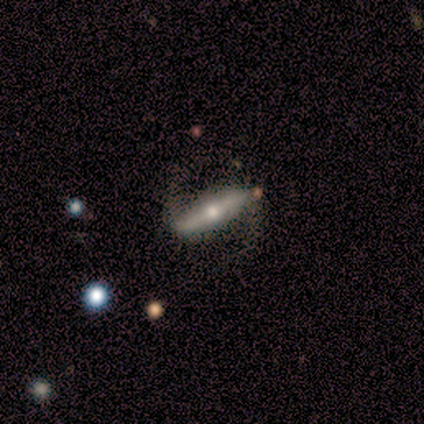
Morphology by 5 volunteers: type=featured or disk (100%); edge-on=no (60%); bar=strong (100%); spiral arms=yes (100%); winding=medium (67%); arm count=2 (100%); bulge=moderate (67%); merging=none (60%).